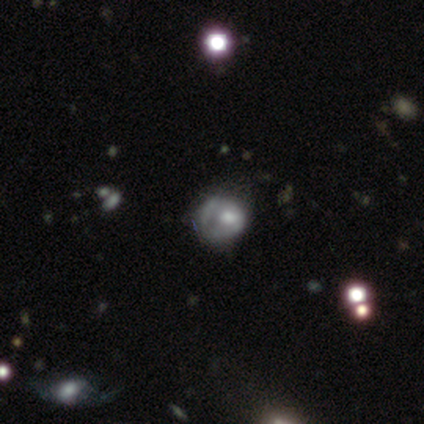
Volunteers were most divided on "smooth or featured": star or artifact: 60%, smooth: 20%, featured or disk: 20%.